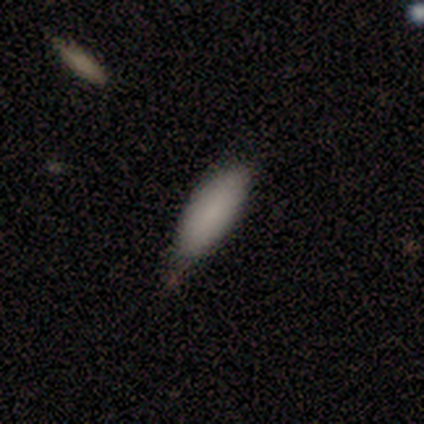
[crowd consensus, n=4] Smooth or featured?
  - smooth: 100% *
  - featured or disk: 0%
  - star or artifact: 0%
How rounded?
  - in between: 75% *
  - cigar-shaped: 25%
  - round: 0%
Merging?
  - none: 50% * (tied)
  - minor disturbance: 50% * (tied)
  - major disturbance: 0%
  - merger: 0%